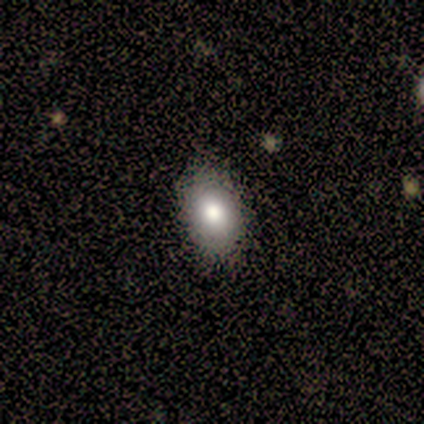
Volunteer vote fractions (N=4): smooth-or-featured: smooth: 50% (tied) | star or artifact: 50% (tied) | featured or disk: 0%
  how-rounded: in between: 100% | round: 0% | cigar-shaped: 0%
  merging: none: 50% (tied) | minor disturbance: 50% (tied) | major disturbance: 0% | merger: 0%